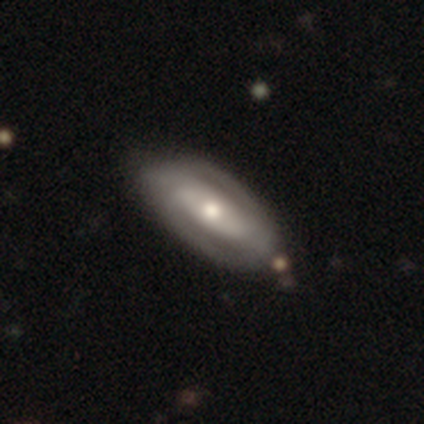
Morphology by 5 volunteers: Smooth or featured: featured or disk — 80% (star or artifact — 20%)
Edge-on disk: no — 100%
Bar: strong — 75% (no — 25%)
Spiral arms: yes — 75% (no — 25%)
Spiral winding: medium — 67% (tight — 33%)
Spiral arm count: can't tell — 67% (2 — 33%)
Bulge size: moderate — 50% (large — 25%)
Merging: none — 75% (minor disturbance — 25%)